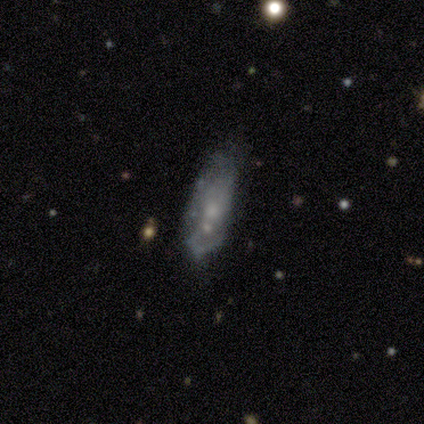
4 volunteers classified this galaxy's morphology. type=smooth (50%); roundness=cigar-shaped (100%); merging=minor disturbance (67%).